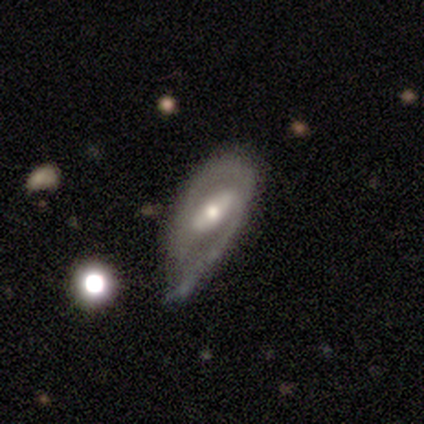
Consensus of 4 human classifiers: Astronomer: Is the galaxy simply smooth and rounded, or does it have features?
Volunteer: featured or disk — 75%.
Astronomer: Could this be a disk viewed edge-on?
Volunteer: no — 100%.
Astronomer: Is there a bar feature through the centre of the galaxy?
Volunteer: weak — 67%.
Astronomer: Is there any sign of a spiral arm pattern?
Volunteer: yes — 67%.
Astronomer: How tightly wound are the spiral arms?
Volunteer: tight — 50%, tied with medium at 50%.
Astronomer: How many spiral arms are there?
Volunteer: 1 — 50%, tied with 2 at 50%.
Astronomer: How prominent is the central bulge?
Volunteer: moderate — 67%.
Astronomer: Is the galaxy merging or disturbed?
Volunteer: minor disturbance — 67%.